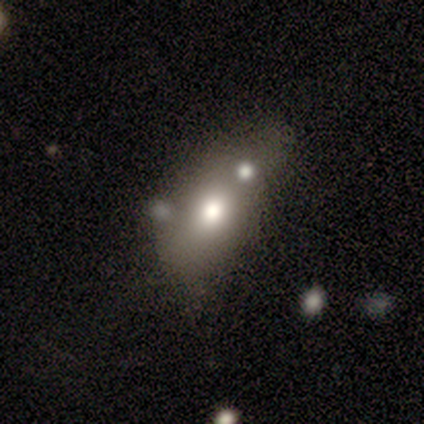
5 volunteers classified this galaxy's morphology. Smooth or featured?
  - smooth: 80% *
  - featured or disk: 20%
  - star or artifact: 0%
How rounded?
  - round: 50% * (tied)
  - in between: 50% * (tied)
  - cigar-shaped: 0%
Merging?
  - merger: 60% *
  - minor disturbance: 20%
  - major disturbance: 20%
  - none: 0%